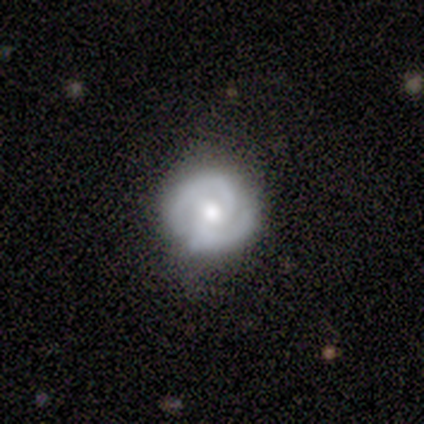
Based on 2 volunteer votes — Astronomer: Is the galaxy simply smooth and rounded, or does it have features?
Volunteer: featured or disk — 100%.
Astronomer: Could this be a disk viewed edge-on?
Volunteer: no — 100%.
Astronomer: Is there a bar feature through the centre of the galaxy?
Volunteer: no — 100%.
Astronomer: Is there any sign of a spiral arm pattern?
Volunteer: yes — 100%.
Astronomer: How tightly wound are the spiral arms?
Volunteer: tight — 50%, tied with medium at 50%.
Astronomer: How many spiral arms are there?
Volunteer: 2 — 100%.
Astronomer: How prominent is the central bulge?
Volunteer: moderate — 50%, tied with none at 50%.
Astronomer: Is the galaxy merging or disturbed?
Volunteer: none — 100%.